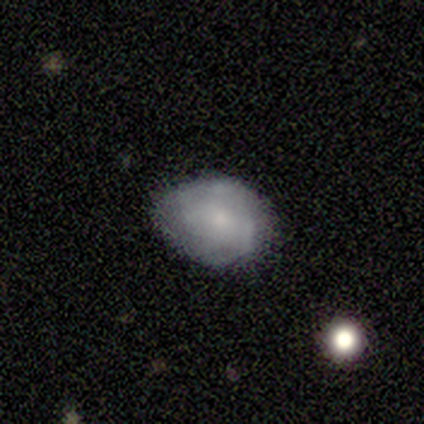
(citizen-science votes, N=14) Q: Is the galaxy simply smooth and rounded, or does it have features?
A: smooth — 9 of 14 (64%).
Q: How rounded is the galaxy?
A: in between — 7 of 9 (78%).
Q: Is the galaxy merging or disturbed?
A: minor disturbance — 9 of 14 (64%).